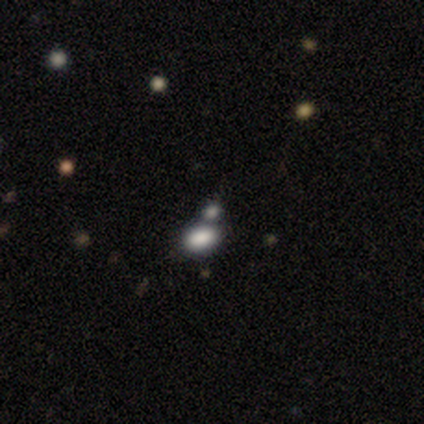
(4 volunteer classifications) Smooth or featured?
  - smooth: 50% * (tied)
  - star or artifact: 50% * (tied)
  - featured or disk: 0%
How rounded?
  - round: 50% * (tied)
  - in between: 50% * (tied)
  - cigar-shaped: 0%
Merging?
  - none: 50% * (tied)
  - merger: 50% * (tied)
  - minor disturbance: 0%
  - major disturbance: 0%